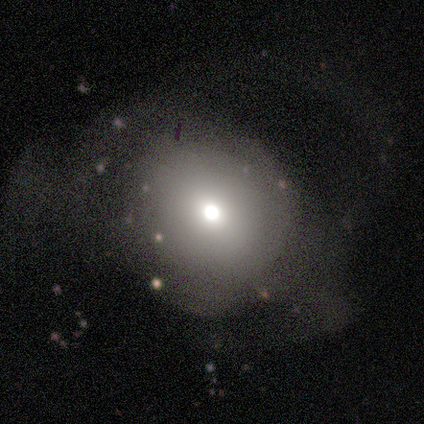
Overall: smooth (40%, tied with featured or disk). How rounded: round (50%, tied with in between). Merging: major disturbance (50%; none 25%).